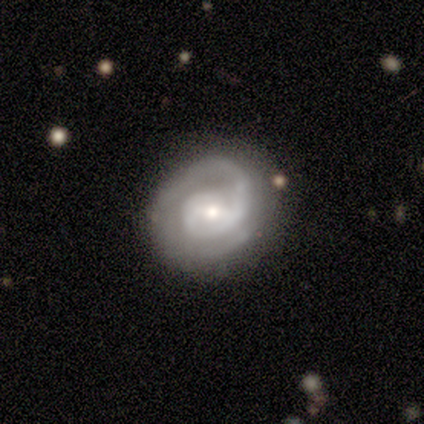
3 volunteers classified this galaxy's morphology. A featured or disk galaxy (100%) with a weak bar (67%), 2 (100%) tight (67%) spiral arms (100%) and a moderate central bulge (67%). Merging: none (67%).